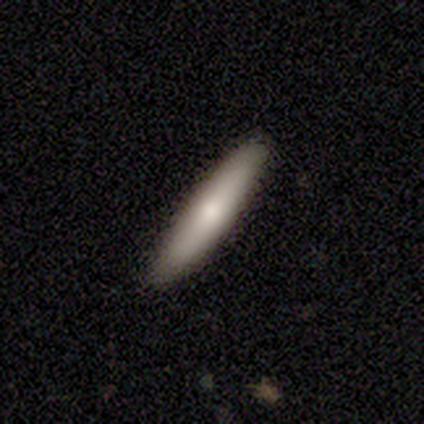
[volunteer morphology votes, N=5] Smooth or featured?
  - smooth: 60% *
  - featured or disk: 40%
  - star or artifact: 0%
How rounded?
  - cigar-shaped: 100% *
  - round: 0%
  - in between: 0%
Merging?
  - none: 100% *
  - minor disturbance: 0%
  - major disturbance: 0%
  - merger: 0%